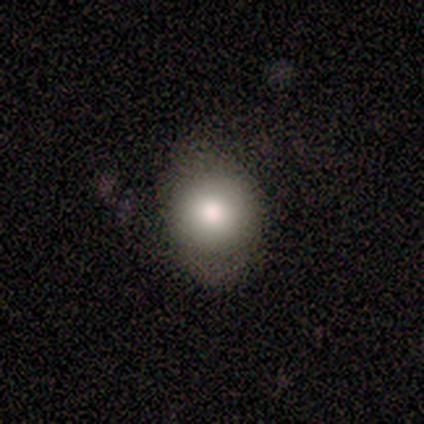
A smooth galaxy with no disk features (86%) that is round (50%, tied with in between). Merging: none (71%).